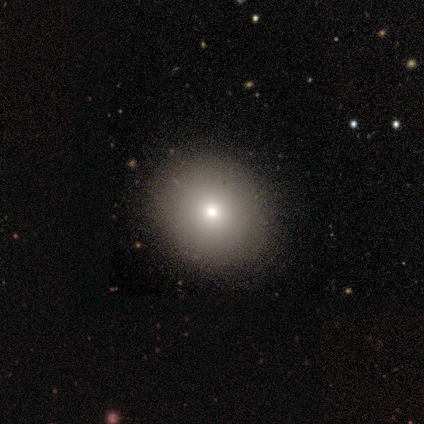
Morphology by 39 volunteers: Smooth or featured? smooth (72%)
How rounded? round (86%)
Merging? none (88%)